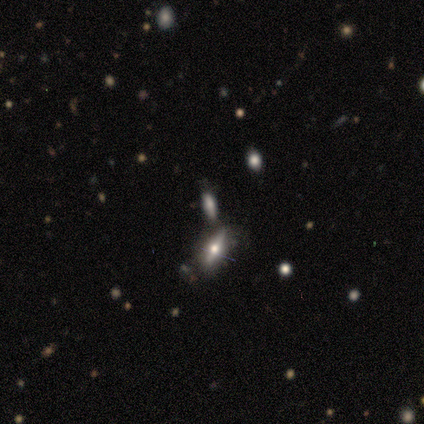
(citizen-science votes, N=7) Volunteers were most divided on "smooth or featured": star or artifact: 43%, smooth: 29%, featured or disk: 29%.